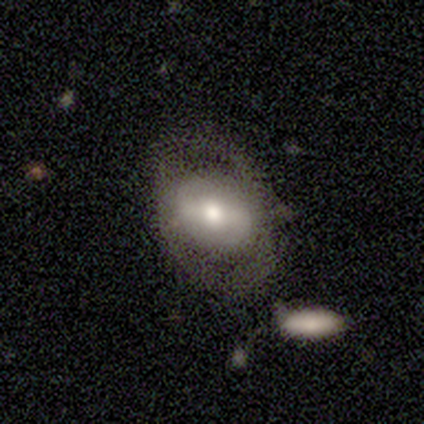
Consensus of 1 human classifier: Consensus on every question: smooth or featured — featured or disk (100%); edge-on disk — no (100%); bar — weak (100%); spiral arms — no (100%); bulge size — moderate (100%); merging — none (100%).